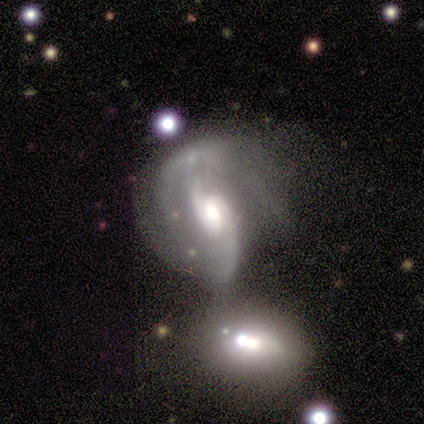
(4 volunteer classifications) smooth-or-featured: featured or disk: 75% | star or artifact: 25% | smooth: 0%
  disk-edge-on: no: 100% | yes: 0%
    bar: no: 67% | strong: 33% | weak: 0%
    has-spiral-arms: yes: 100% | no: 0%
      spiral-winding: loose: 67% | tight: 33% | medium: 0%
      spiral-arm-count: 2: 100% | 1: 0% | 3: 0% | 4: 0% | more than 4: 0% | can't tell: 0%
    bulge-size: moderate: 67% | small: 33% | dominant: 0% | large: 0% | none: 0%
  merging: merger: 67% | none: 33% | minor disturbance: 0% | major disturbance: 0%